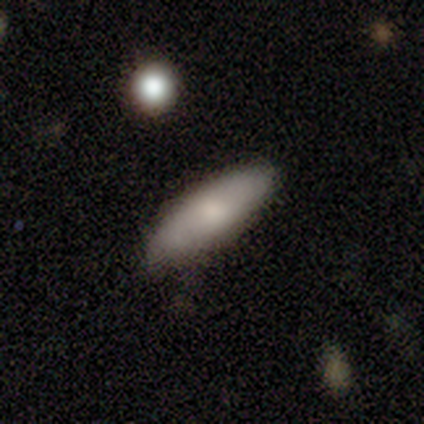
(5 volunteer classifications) smooth 80%, featured or disk 20%, star or artifact 0%. Down the decision tree: how rounded — in between (50%, tied with cigar-shaped); merging — none (100%).